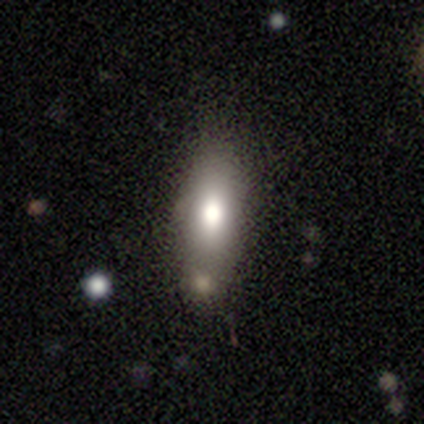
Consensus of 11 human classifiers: Morphology: type=smooth (82%); roundness=in between (67%); merging=none (82%).